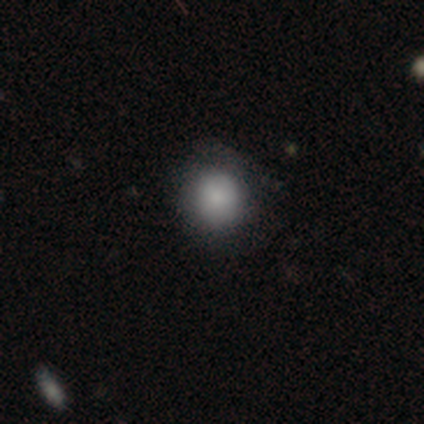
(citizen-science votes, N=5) A smooth galaxy with no disk features (60%) that is round (100%). Merging: none (100%).